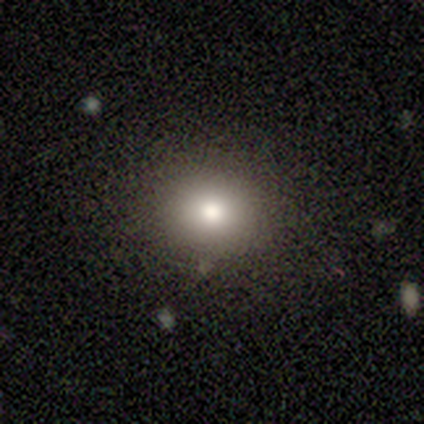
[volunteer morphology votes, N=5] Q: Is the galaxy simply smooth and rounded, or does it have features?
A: smooth — 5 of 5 (100%).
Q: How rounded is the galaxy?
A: round — 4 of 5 (80%).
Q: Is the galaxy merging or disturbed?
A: none — 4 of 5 (80%).